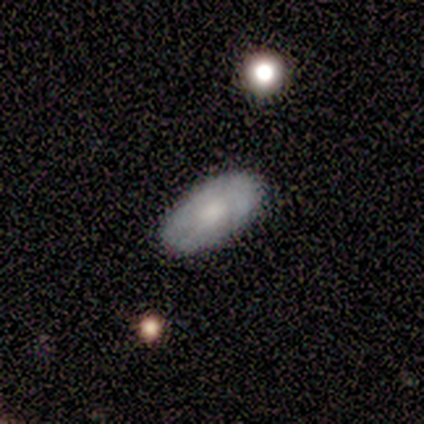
A smooth galaxy with no disk features (80%) that is in between round and cigar-shaped (100%).

Vote fractions:
- Smooth or featured? smooth: 80% / featured or disk: 20% / star or artifact: 0%
- How rounded? in between: 100% / round: 0% / cigar-shaped: 0%
- Merging? none: 100% / minor disturbance: 0% / major disturbance: 0% / merger: 0%